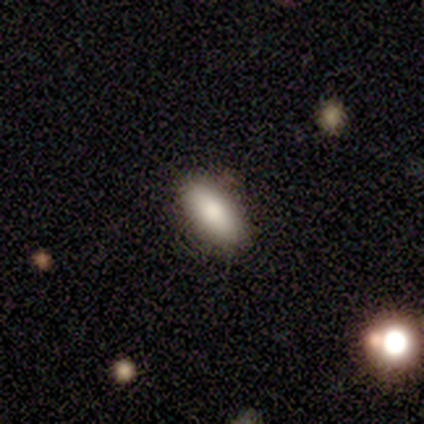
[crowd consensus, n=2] Smooth or featured? smooth (100%)
How rounded? in between (100%)
Merging? none (100%)